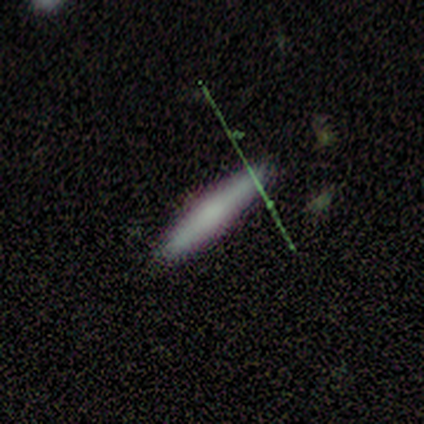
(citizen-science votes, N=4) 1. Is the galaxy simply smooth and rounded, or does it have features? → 75% smooth, 25% featured or disk, 0% star or artifact.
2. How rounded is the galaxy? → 67% cigar-shaped, 33% in between, 0% round.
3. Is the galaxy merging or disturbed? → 100% none, 0% minor disturbance, 0% major disturbance, 0% merger.